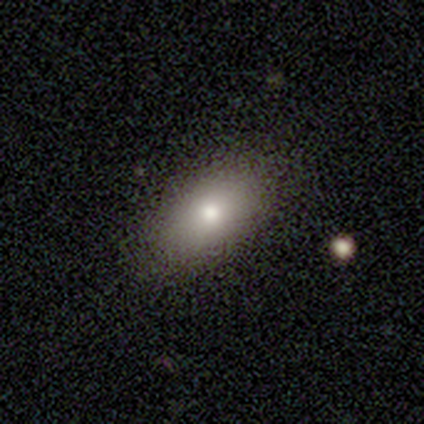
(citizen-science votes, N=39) smooth-or-featured: smooth: 77% | featured or disk: 18% | star or artifact: 5%
  how-rounded: in between: 100% | round: 0% | cigar-shaped: 0%
  merging: none: 97% | minor disturbance: 3% | major disturbance: 0% | merger: 0%